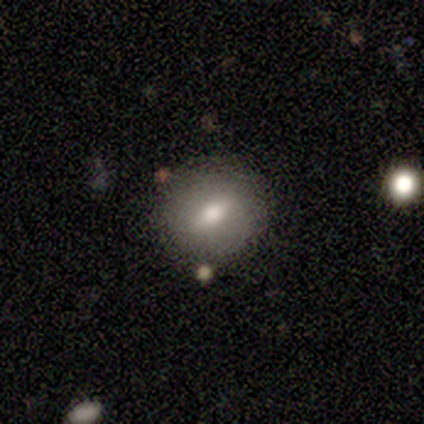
Morphology: type=smooth (80%); roundness=round (75%); merging=none (80%).